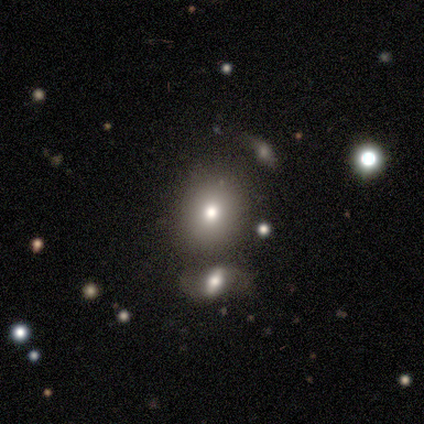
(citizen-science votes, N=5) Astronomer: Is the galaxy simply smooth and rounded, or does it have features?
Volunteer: smooth — 80%.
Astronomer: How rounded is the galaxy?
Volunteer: in between — 75%.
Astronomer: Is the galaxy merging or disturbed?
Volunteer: merger — 60%.